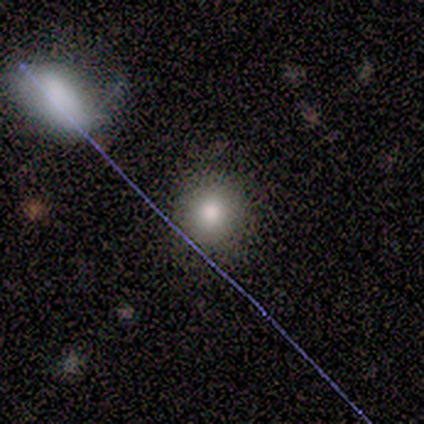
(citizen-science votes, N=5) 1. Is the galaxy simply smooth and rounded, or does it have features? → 80% smooth, 20% star or artifact, 0% featured or disk.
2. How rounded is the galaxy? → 100% round, 0% in between, 0% cigar-shaped.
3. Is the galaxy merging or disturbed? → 75% none, 25% minor disturbance, 0% major disturbance, 0% merger.